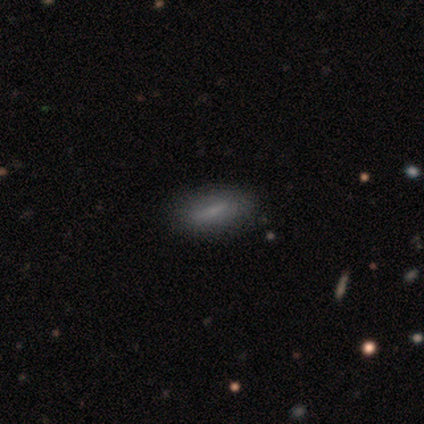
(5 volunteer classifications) This is clearly a smooth galaxy (80%). How rounded: possibly in between (50%, tied with cigar-shaped). Merging: clearly none (100%).